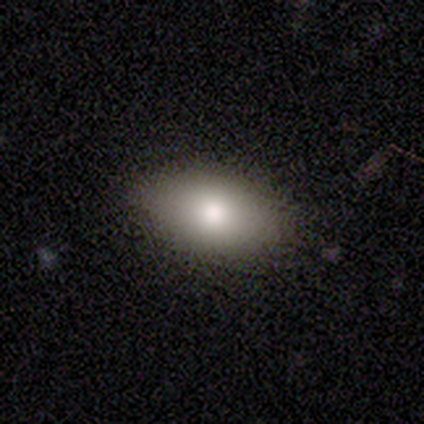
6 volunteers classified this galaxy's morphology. This is likely a smooth galaxy (67%). How rounded: clearly in between (100%). Merging: clearly none (83%).